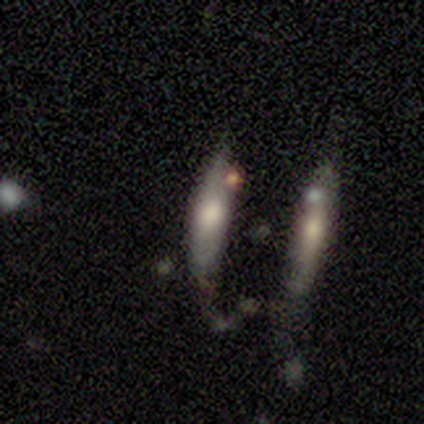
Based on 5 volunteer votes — Morphology: type=smooth (80%); roundness=in between (75%); merging=none (60%).